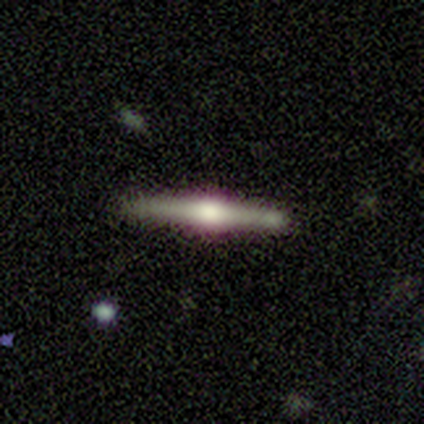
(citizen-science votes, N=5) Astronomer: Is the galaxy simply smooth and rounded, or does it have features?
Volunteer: featured or disk — 80%.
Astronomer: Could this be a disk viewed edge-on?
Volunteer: yes — 100%.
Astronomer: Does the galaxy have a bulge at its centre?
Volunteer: rounded — 100%.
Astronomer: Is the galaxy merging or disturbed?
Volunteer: none — 80%.